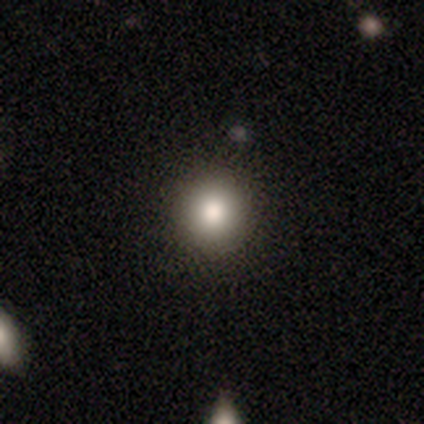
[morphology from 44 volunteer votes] This is clearly a smooth galaxy (84%). How rounded: clearly round (95%). Merging: clearly none (92%).